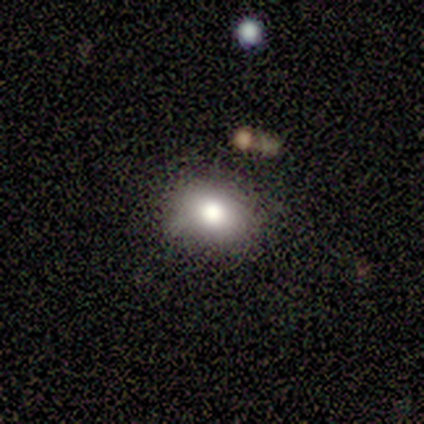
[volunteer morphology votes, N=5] Volunteers were most divided on "merging": minor disturbance: 50%, none: 25%, major disturbance: 25%, merger: 0%. More confident: smooth or featured — smooth (80%); how rounded — in between (75%).